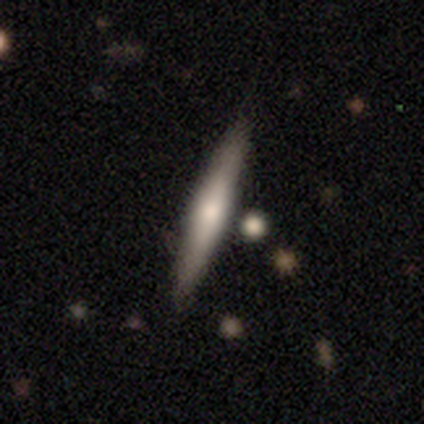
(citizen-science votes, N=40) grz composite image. It shows a featured or disk galaxy (52%) viewed edge-on (90%) with a rounded central bulge (74%). Merging: none (79%).